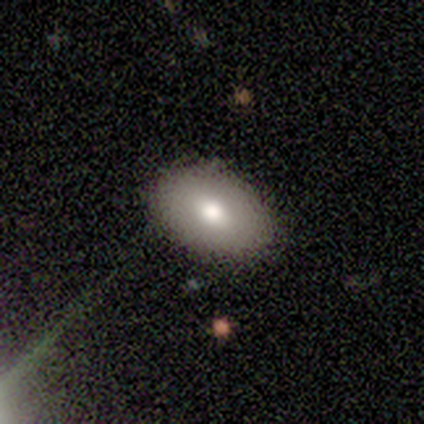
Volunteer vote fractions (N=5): A smooth galaxy with no disk features (80%) that is in between round and cigar-shaped (100%). Merging: none (100%).